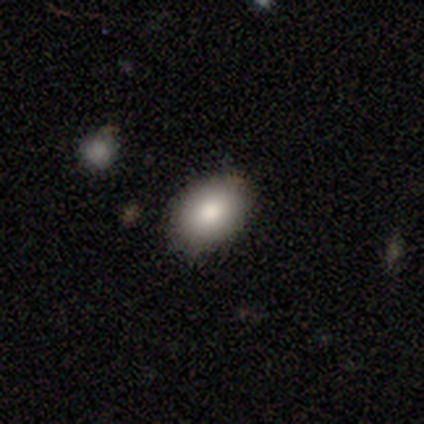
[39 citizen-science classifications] This is clearly a smooth galaxy (90%). How rounded: clearly in between (80%). Merging: clearly none (92%).